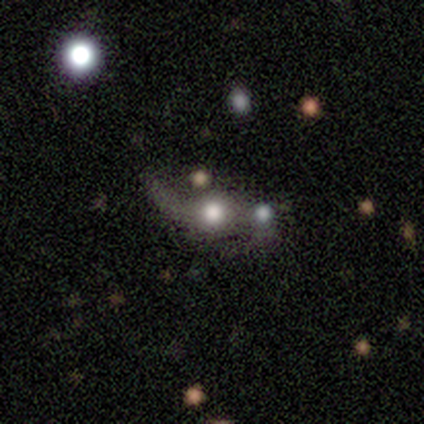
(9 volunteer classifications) Smooth or featured: featured or disk — 56% (smooth — 22%)
Edge-on disk: no — 100%
Bar: no — 100%
Spiral arms: yes — 80% (no — 20%)
Spiral winding: loose — 100%
Spiral arm count: 2 — 100%
Bulge size: moderate — 80% (large — 20%)
Merging: none — 57% (major disturbance — 29%)